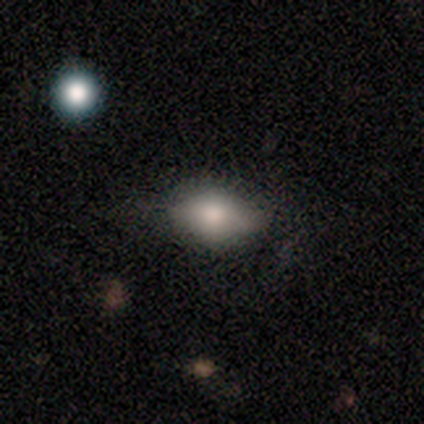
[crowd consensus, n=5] smooth_or_featured: smooth (p=0.60) [alt: featured or disk p=0.40]
how_rounded: in between (p=1.00)
merging: minor disturbance (p=0.60) [alt: major disturbance p=0.40]